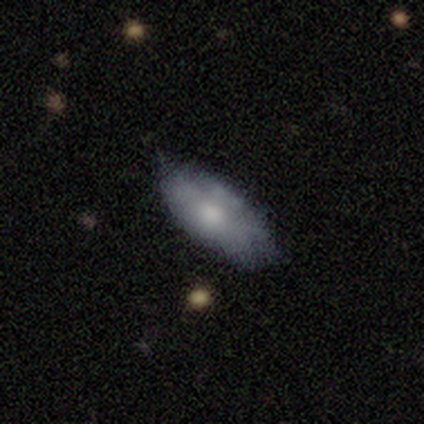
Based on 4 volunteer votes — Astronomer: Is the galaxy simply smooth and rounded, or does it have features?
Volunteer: smooth — 50%, tied with featured or disk at 50%.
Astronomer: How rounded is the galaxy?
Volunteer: in between — 100%.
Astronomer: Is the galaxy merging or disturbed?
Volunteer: minor disturbance — 50%.